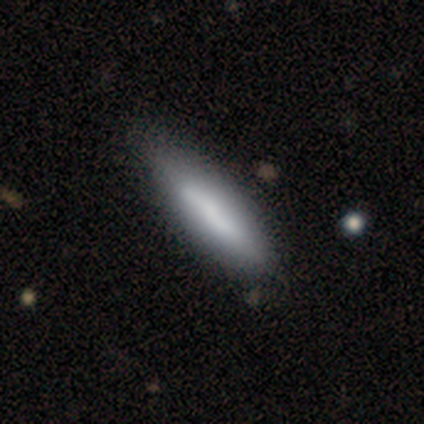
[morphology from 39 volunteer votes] A smooth galaxy with no disk features (72%) that is cigar-shaped (75%).

Vote fractions:
- Smooth or featured? smooth: 72% / featured or disk: 28% / star or artifact: 0%
- How rounded? cigar-shaped: 75% / in between: 25% / round: 0%
- Merging? none: 44% / minor disturbance: 26% / major disturbance: 5% / merger: 5%